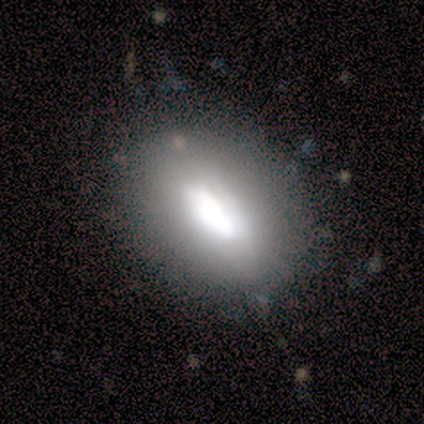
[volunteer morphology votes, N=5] smooth_or_featured: featured or disk (p=0.60) [alt: smooth p=0.40]
disk_edge_on: no (p=0.67) [alt: yes p=0.33]
bar: weak (p=1.00)
has_spiral_arms: no (p=1.00)
bulge_size: large (p=0.50) [tied with: moderate p=0.50]
merging: none (p=0.80) [alt: minor disturbance p=0.20]